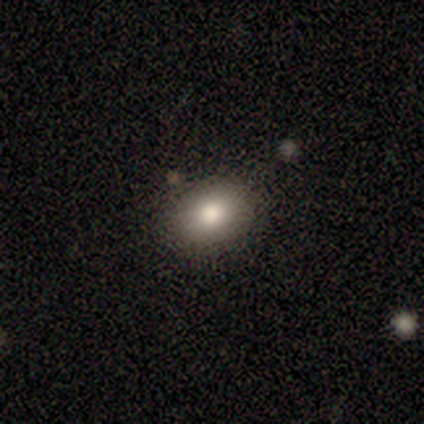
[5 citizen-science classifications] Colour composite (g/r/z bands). It shows a smooth galaxy with no disk features (100%) that is in between round and cigar-shaped (60%). Merging: none (100%).